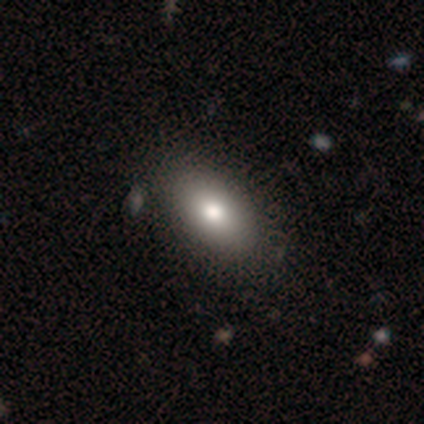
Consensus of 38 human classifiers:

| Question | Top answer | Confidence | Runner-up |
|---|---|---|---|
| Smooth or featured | smooth | 82% | featured or disk (11%) |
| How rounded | in between | 90% | round (6%) |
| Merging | none | 54% | minor disturbance (6%) |